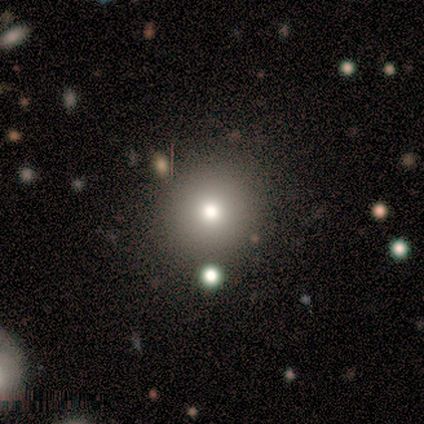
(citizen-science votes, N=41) A smooth galaxy with no disk features (63%) that is round (92%).

Vote fractions:
- Smooth or featured? smooth: 63% / featured or disk: 20% / star or artifact: 17%
- How rounded? round: 92% / in between: 8% / cigar-shaped: 0%
- Merging? none: 97% / minor disturbance: 3% / major disturbance: 0% / merger: 0%